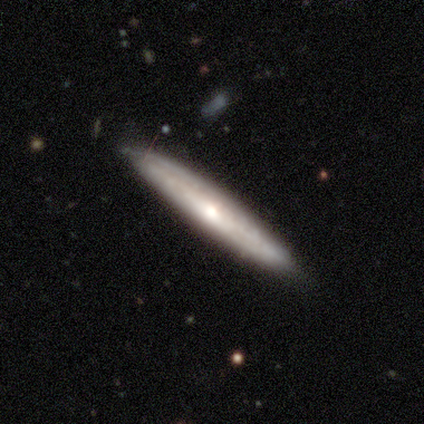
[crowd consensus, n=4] Q: Smooth or featured?
A: smooth (75%); runner-up: featured or disk (25%)
Q: How rounded?
A: cigar-shaped (100%)
Q: Merging?
A: none (75%); runner-up: minor disturbance (25%)